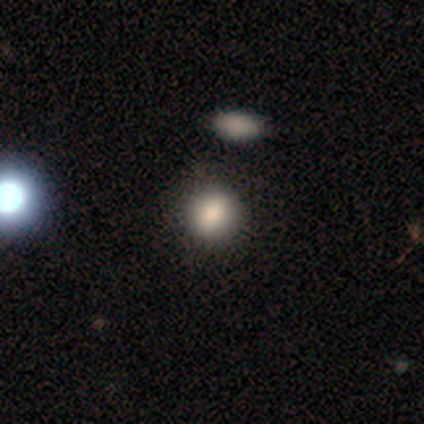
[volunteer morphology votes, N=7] This appears to be a smooth galaxy with no disk features (86%) that is round (50%, tied with in between). Merging: none (86%).